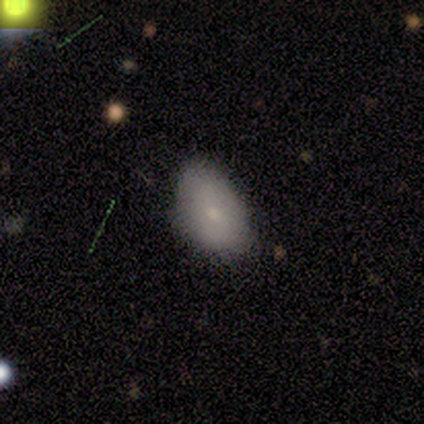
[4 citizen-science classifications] Smooth or featured: smooth — 100%
How rounded: in between — 100%
Merging: none — 75% (minor disturbance — 25%)